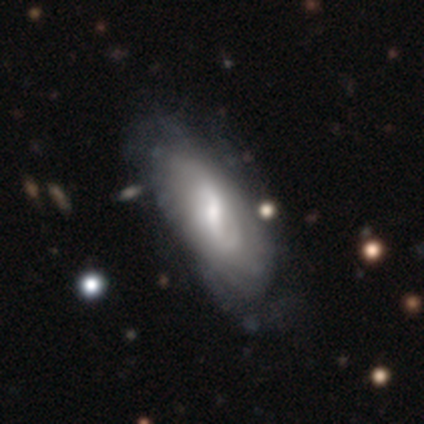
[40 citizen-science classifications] smooth_or_featured: featured or disk (p=0.78) [alt: smooth p=0.20]
disk_edge_on: no (p=0.94) [alt: yes p=0.06]
bar: weak (p=0.55) [alt: strong p=0.31]
has_spiral_arms: yes (p=0.90) [alt: no p=0.10]
spiral_winding: tight (p=0.62) [alt: medium p=0.23]
spiral_arm_count: can't tell (p=0.58) [alt: 2 p=0.31]
bulge_size: moderate (p=0.62) [alt: small p=0.17]
merging: none (p=0.36) [alt: minor disturbance p=0.15]